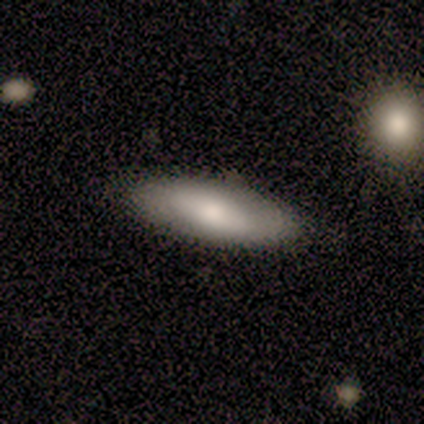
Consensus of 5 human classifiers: Volunteers were most divided on "how rounded" (2-way tie): in between: 50%, cigar-shaped: 50%, round: 0%. More confident: smooth or featured — smooth (80%); merging — none (80%).